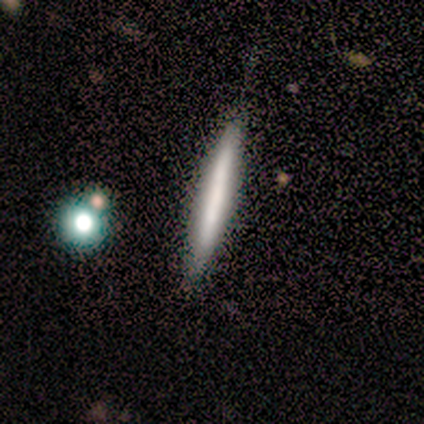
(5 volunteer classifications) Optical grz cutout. It shows a smooth galaxy with no disk features (40%, tied with featured or disk) that is cigar-shaped (100%). Merging: none (100%).